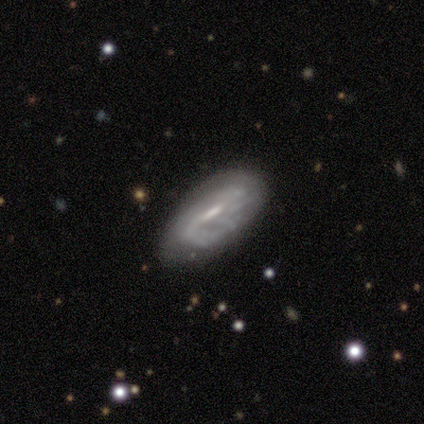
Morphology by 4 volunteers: smooth-or-featured: featured or disk: 75% | smooth: 25% | star or artifact: 0%
  disk-edge-on: no: 100% | yes: 0%
    bar: strong: 67% | weak: 33% | no: 0%
    has-spiral-arms: yes: 100% | no: 0%
      spiral-winding: loose: 67% | tight: 33% | medium: 0%
      spiral-arm-count: 2: 67% | 1: 33% | 3: 0% | 4: 0% | more than 4: 0% | can't tell: 0%
    bulge-size: large: 33% (tied) | moderate: 33% (tied) | small: 33% (tied) | dominant: 0% | none: 0%
  merging: none: 75% | minor disturbance: 25% | major disturbance: 0% | merger: 0%